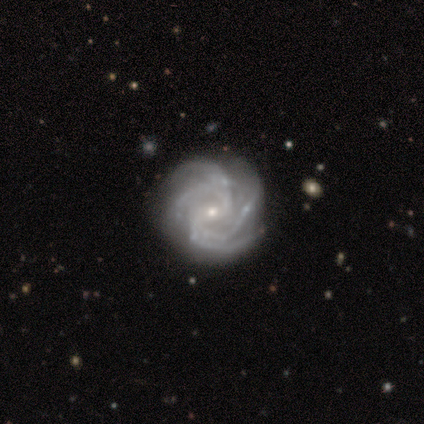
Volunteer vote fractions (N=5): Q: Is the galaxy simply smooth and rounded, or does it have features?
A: featured or disk — 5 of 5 (100%).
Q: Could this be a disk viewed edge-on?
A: no — 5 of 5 (100%).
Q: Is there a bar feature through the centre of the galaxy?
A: no — 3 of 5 (60%).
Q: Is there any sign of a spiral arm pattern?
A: yes — 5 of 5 (100%).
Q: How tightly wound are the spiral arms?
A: tight — 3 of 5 (60%).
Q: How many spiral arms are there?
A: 4 — 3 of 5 (60%).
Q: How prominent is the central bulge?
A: small — 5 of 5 (100%).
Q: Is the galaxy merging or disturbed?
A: none — 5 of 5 (100%).